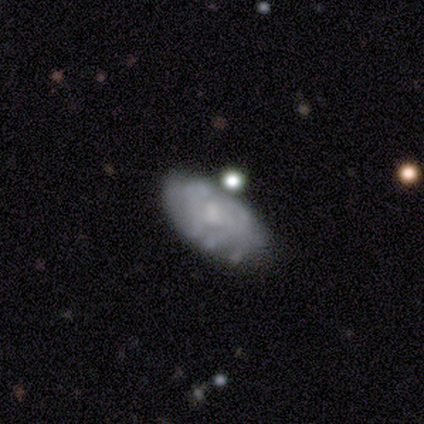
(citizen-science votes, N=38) Smooth or featured? featured or disk (68%)
Edge-on disk? no (100%)
Bar? no (73%)
Spiral arms? no (54%)
Bulge size? none (46%)
Merging? none (58%)